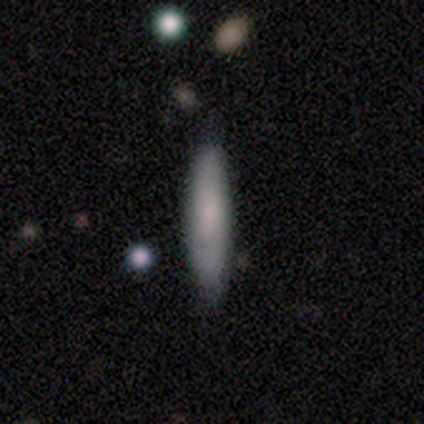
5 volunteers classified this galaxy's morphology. smooth-or-featured: smooth: 100% | featured or disk: 0% | star or artifact: 0%
  how-rounded: cigar-shaped: 100% | round: 0% | in between: 0%
  merging: none: 100% | minor disturbance: 0% | major disturbance: 0% | merger: 0%